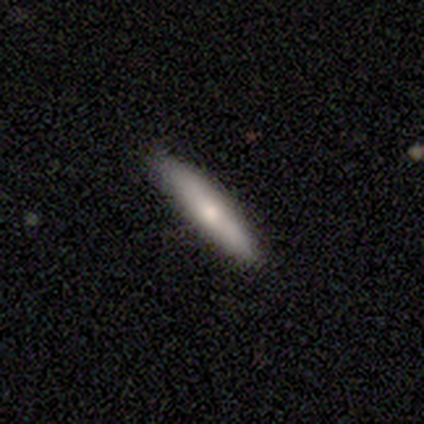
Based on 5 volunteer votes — Smooth or featured? smooth (80%)
How rounded? cigar-shaped (100%)
Merging? none (80%)